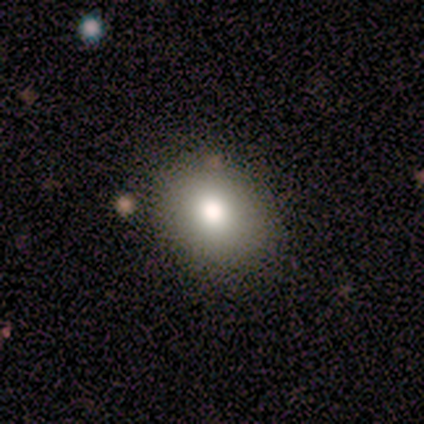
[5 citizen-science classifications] This is clearly a smooth galaxy (80%). How rounded: possibly round (50%, tied with in between). Merging: clearly none (100%).